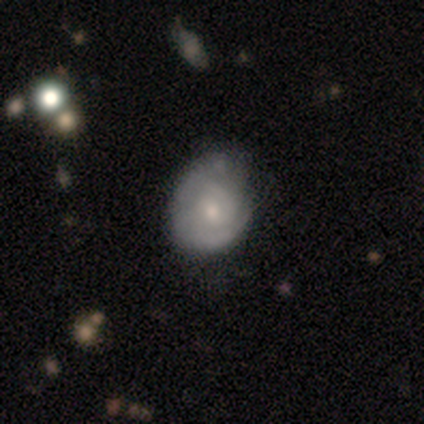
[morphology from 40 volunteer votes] Smooth or featured? 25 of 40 (62%) said featured or disk. Edge-on disk? 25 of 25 (100%) said no. Bar? 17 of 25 (68%) said no. Spiral arms? 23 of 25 (92%) said yes. Spiral winding? 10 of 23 (43%, tied with medium) said tight. Spiral arm count? 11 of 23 (48%, tied with can't tell) said 2. Bulge size? 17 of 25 (68%) said small. Merging? 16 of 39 (41%) said none.